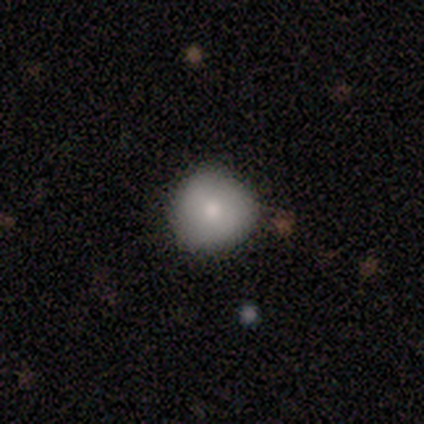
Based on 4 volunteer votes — Overall: smooth (100%). How rounded: round (100%). Merging: none (100%).